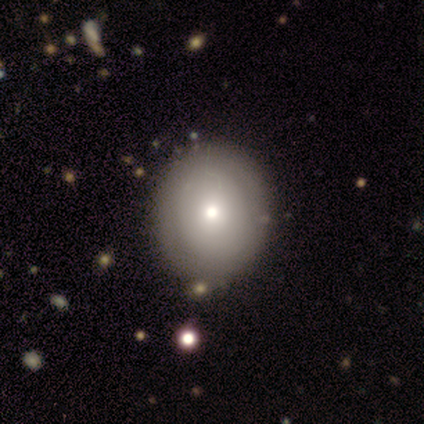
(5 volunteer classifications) A smooth galaxy with no disk features (80%) that is round (75%).

Vote fractions:
- Smooth or featured? smooth: 80% / featured or disk: 20% / star or artifact: 0%
- How rounded? round: 75% / in between: 25% / cigar-shaped: 0%
- Merging? none: 80% / minor disturbance: 20% / major disturbance: 0% / merger: 0%